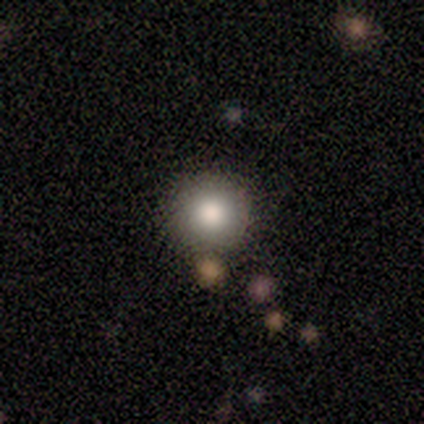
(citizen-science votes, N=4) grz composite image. It shows a smooth galaxy with no disk features (100%) that is round (75%). Merging: merger (50%).